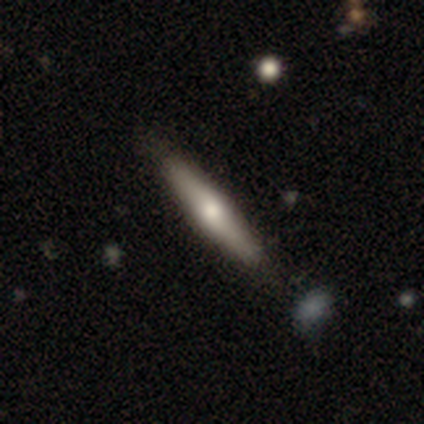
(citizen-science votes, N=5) Q: Smooth or featured?
A: featured or disk (80%); runner-up: star or artifact (20%)
Q: Edge-on disk?
A: yes (100%)
Q: Edge-on bulge?
A: rounded (100%)
Q: Merging?
A: none (50%); runner-up: minor disturbance (25%)